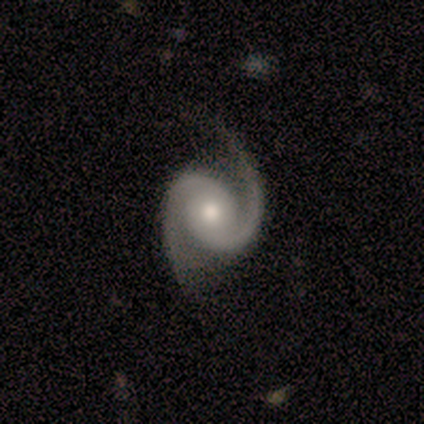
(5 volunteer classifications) smooth_or_featured: featured or disk (p=1.00)
disk_edge_on: no (p=1.00)
bar: no (p=0.60) [alt: weak p=0.40]
has_spiral_arms: yes (p=1.00)
spiral_winding: medium (p=0.60) [alt: tight p=0.40]
spiral_arm_count: 2 (p=1.00)
bulge_size: moderate (p=0.80) [alt: small p=0.20]
merging: none (p=1.00)